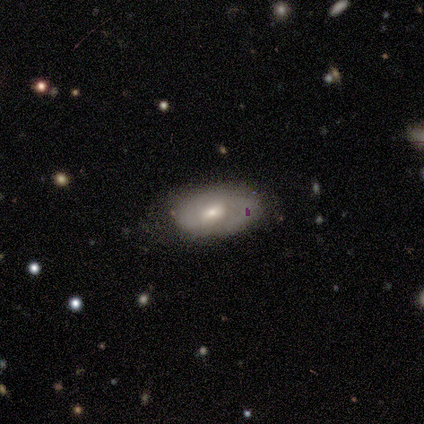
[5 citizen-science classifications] Smooth or featured? featured or disk (60%)
Edge-on disk? no (67%)
Bar? weak (50%, tied with no)
Spiral arms? yes (100%)
Spiral winding? tight (100%)
Spiral arm count? 2 (100%)
Bulge size? moderate (100%)
Merging? none (80%)